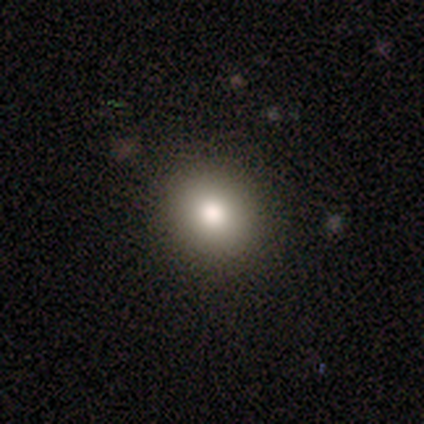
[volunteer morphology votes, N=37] This appears to be a smooth galaxy with no disk features (78%) that is round (86%). Merging: none (85%).